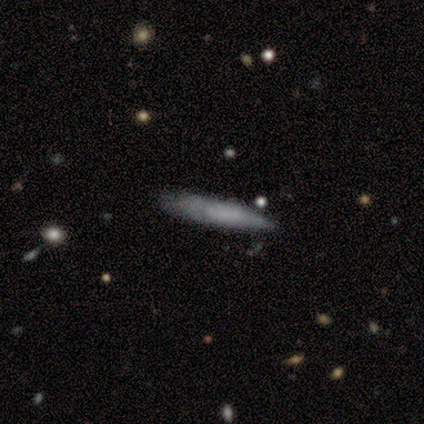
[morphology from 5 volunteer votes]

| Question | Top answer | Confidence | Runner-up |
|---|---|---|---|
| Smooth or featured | smooth | 60% | featured or disk (20%) |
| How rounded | cigar-shaped | 67% | in between (33%) |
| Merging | none | 75% | minor disturbance (25%) |